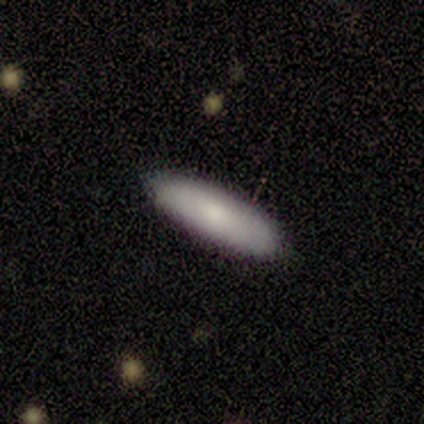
Smooth or featured? 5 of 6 (83%) said smooth. How rounded? 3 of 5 (60%) said cigar-shaped. Merging? 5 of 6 (83%) said none.